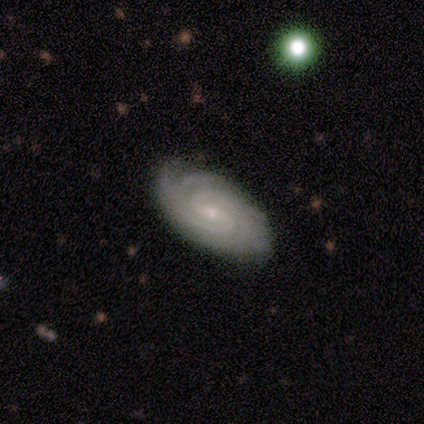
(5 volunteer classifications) A featured or disk galaxy (100%) with a weak bar (40%, tied with no), tight (80%) spiral arms (100%) and a small central bulge (80%).

Vote fractions:
- Smooth or featured? featured or disk: 100% / smooth: 0% / star or artifact: 0%
- Edge-on disk? no: 100% / yes: 0%
- Bar? weak: 40% (tied) / no: 40% (tied) / strong: 20%
- Spiral arms? yes: 100% / no: 0%
- Spiral winding? tight: 80% / loose: 20% / medium: 0%
- Spiral arm count? can't tell: 60% / 2: 20% / 3: 20% / 1: 0% / 4: 0% / more than 4: 0%
- Bulge size? small: 80% / moderate: 20% / dominant: 0% / large: 0% / none: 0%
- Merging? none: 100% / minor disturbance: 0% / major disturbance: 0% / merger: 0%